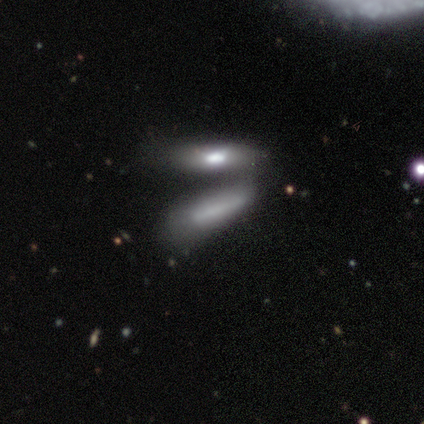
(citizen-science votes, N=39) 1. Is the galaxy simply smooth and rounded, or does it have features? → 72% smooth, 26% featured or disk, 3% star or artifact.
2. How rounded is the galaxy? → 68% cigar-shaped, 32% in between, 0% round.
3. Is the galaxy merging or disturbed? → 68% merger, 16% minor disturbance, 11% none, 5% major disturbance.